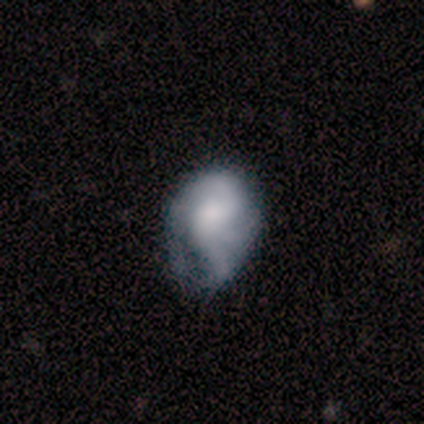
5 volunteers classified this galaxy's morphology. Overall: smooth (80%). How rounded: in between (75%). Merging: none (25%, tied with minor disturbance, major disturbance and merger).